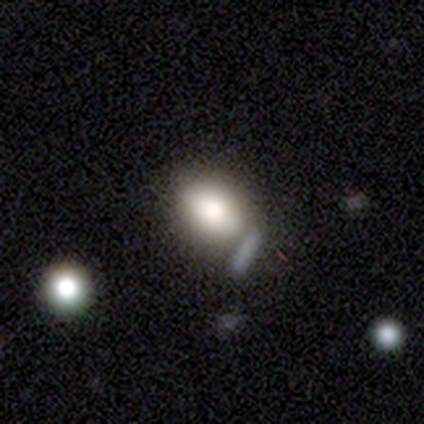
smooth-or-featured: smooth: 81% | featured or disk: 14% | star or artifact: 5%
  how-rounded: in between: 75% | round: 24% | cigar-shaped: 2%
  merging: none: 36% | merger: 19% | minor disturbance: 9% | major disturbance: 3%